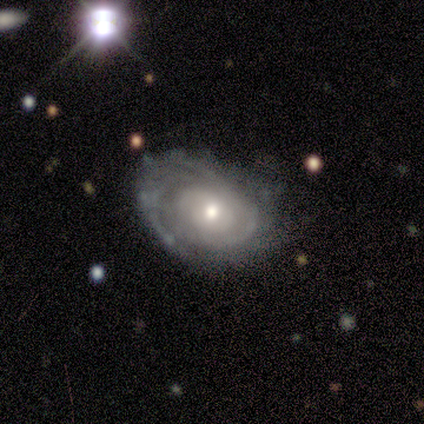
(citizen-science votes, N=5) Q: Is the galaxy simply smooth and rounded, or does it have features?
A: featured or disk — 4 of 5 (80%).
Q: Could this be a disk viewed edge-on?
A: no — 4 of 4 (100%).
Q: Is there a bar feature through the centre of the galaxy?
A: no — 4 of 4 (100%).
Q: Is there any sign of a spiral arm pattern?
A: yes — 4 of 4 (100%).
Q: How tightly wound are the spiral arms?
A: tight — 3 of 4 (75%).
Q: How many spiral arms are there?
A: can't tell — 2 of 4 (50%).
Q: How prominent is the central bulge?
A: small — 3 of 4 (75%).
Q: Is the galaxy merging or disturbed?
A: none — 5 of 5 (100%).